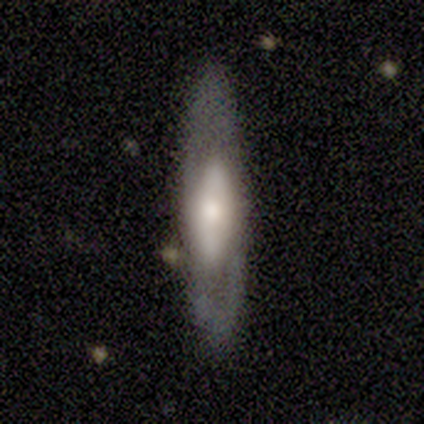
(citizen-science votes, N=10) Smooth or featured: smooth — 50% (tied with featured or disk — 50%)
How rounded: cigar-shaped — 100%
Merging: none — 90% (minor disturbance — 10%)